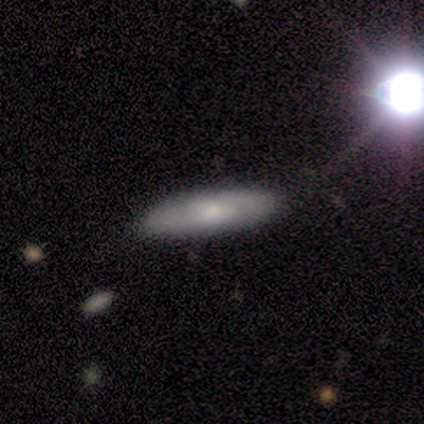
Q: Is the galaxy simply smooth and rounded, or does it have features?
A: smooth — 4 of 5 (80%).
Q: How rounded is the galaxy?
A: cigar-shaped — 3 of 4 (75%).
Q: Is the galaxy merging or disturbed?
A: none — 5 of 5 (100%).